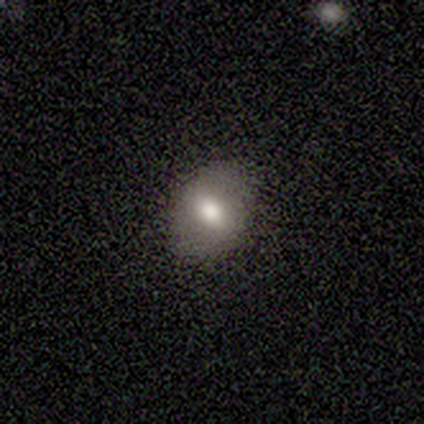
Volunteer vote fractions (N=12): Q: Smooth or featured?
A: smooth (83%); runner-up: featured or disk (17%)
Q: How rounded?
A: round (50%); tied with: in between (50%)
Q: Merging?
A: none (100%)